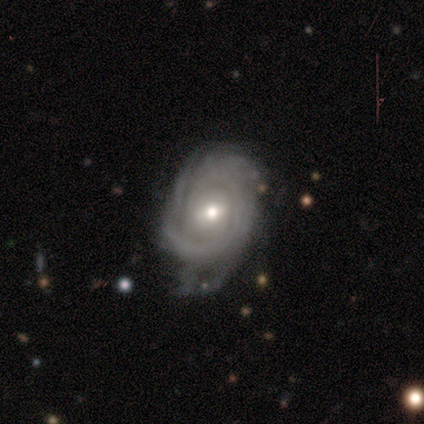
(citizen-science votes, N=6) Q: Smooth or featured?
A: featured or disk (83%); runner-up: star or artifact (17%)
Q: Edge-on disk?
A: no (100%)
Q: Bar?
A: weak (80%); runner-up: no (20%)
Q: Spiral arms?
A: yes (100%)
Q: Spiral winding?
A: tight (80%); runner-up: medium (20%)
Q: Spiral arm count?
A: can't tell (80%); runner-up: 2 (20%)
Q: Bulge size?
A: moderate (60%); runner-up: small (40%)
Q: Merging?
A: minor disturbance (60%); runner-up: none (20%)